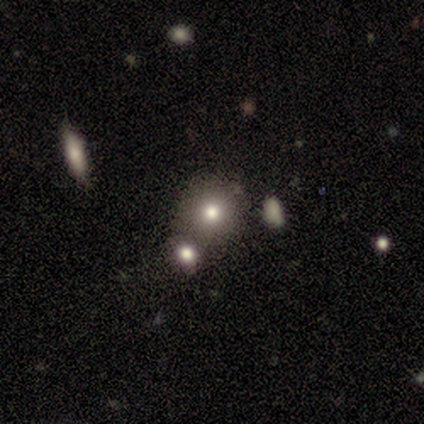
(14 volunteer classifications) This is likely a smooth galaxy (71%). How rounded: clearly round (90%). Merging: likely none (64%).